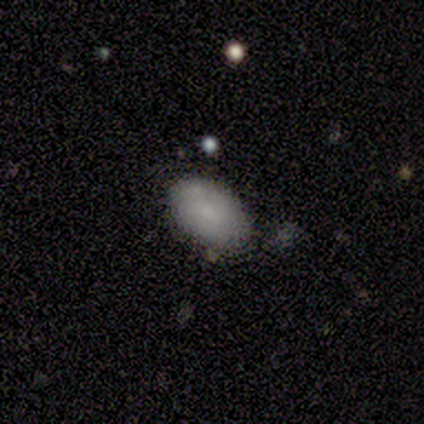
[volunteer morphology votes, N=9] This is likely a smooth galaxy (78%). How rounded: clearly in between (86%). Merging: clearly none (100%).